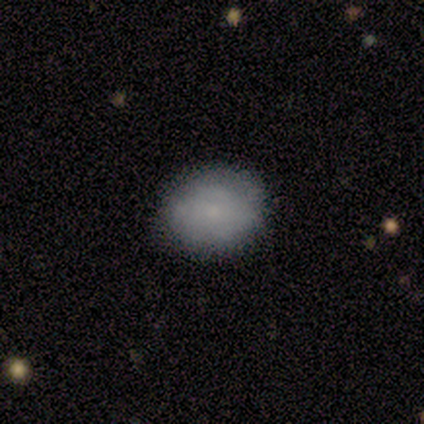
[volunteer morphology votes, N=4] Overall: smooth (75%). How rounded: round (67%; in between 33%). Merging: none (75%).